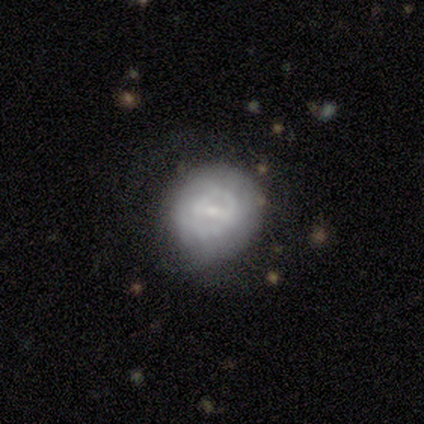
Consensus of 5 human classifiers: Smooth or featured? 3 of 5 (60%) said smooth. How rounded? 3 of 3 (100%) said round. Merging? 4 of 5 (80%) said none.